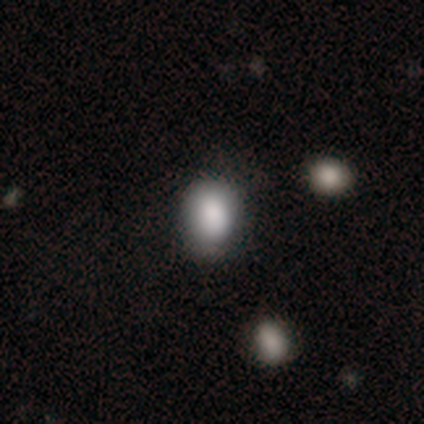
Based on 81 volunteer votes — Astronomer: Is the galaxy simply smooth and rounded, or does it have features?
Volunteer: smooth — 91%.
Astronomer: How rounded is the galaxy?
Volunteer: in between — 64%.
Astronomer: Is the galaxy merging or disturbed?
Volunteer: none — 36% (runner-up: merger, 13%).